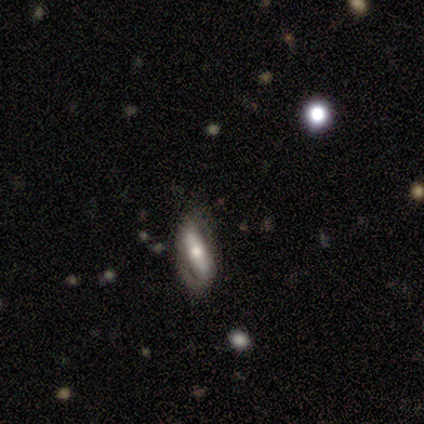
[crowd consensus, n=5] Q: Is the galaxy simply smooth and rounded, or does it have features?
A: smooth — 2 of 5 (40%, tied with featured or disk).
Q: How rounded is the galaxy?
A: in between — 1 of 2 (50%, tied with cigar-shaped).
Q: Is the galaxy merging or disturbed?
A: none — 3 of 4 (75%).